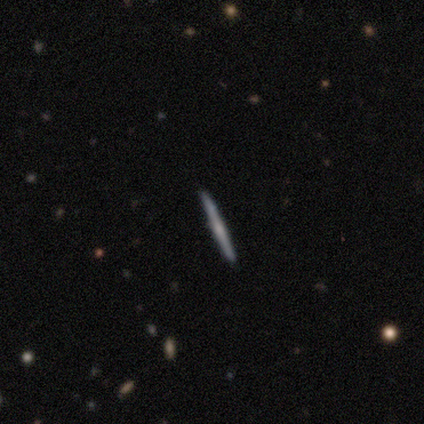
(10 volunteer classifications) Overall: featured or disk (70%). Edge-on disk: yes (100%). Edge-on bulge: rounded (57%; none 29%). Merging: none (75%).